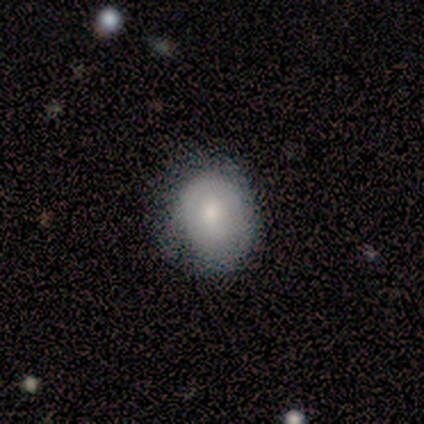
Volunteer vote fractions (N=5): This appears to be a smooth galaxy with no disk features (80%) that is in between round and cigar-shaped (75%). Merging: minor disturbance (75%).